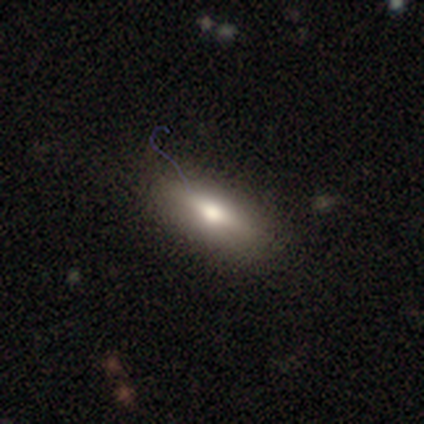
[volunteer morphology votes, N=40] smooth_or_featured: smooth (p=0.65) [alt: featured or disk p=0.28]
how_rounded: in between (p=0.50) [alt: cigar-shaped p=0.42]
merging: none (p=0.89) [alt: minor disturbance p=0.08]